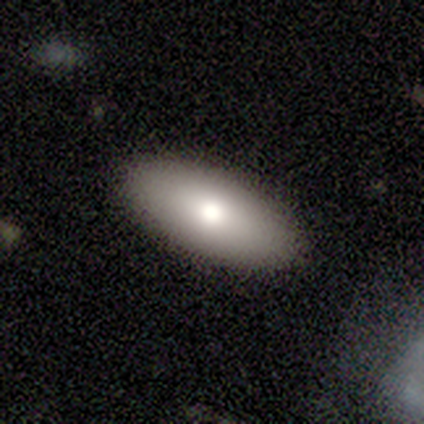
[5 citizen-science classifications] Smooth or featured?
  - smooth: 40% * (tied)
  - star or artifact: 40% * (tied)
  - featured or disk: 20%
How rounded?
  - in between: 100% *
  - round: 0%
  - cigar-shaped: 0%
Merging?
  - none: 100% *
  - minor disturbance: 0%
  - major disturbance: 0%
  - merger: 0%